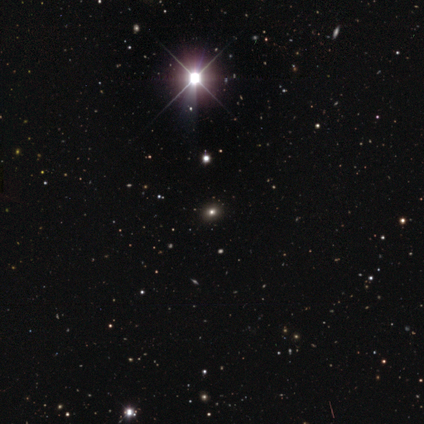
This is likely a star or artifact rather than a galaxy (60%).